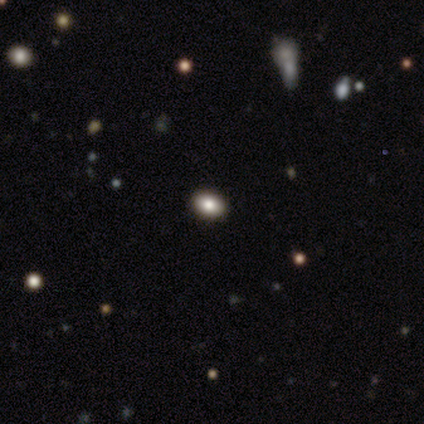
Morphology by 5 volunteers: Q: Smooth or featured?
A: star or artifact (60%); runner-up: smooth (40%)